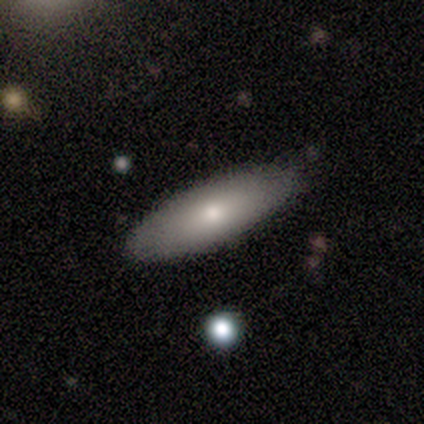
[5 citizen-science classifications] Smooth or featured?
  - smooth: 80% *
  - featured or disk: 20%
  - star or artifact: 0%
How rounded?
  - cigar-shaped: 75% *
  - in between: 25%
  - round: 0%
Merging?
  - none: 100% *
  - minor disturbance: 0%
  - major disturbance: 0%
  - merger: 0%